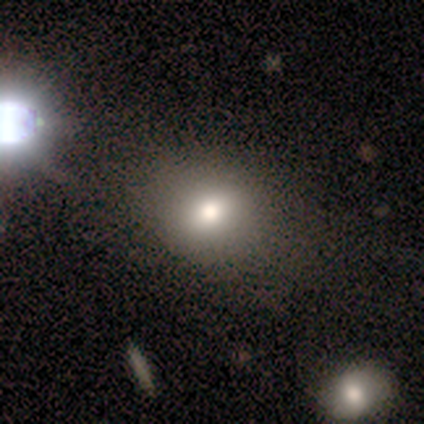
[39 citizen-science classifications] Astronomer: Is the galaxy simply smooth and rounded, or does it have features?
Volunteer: smooth — 82%.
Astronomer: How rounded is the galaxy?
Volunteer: round — 62%.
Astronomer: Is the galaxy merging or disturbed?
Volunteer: none — 69%.